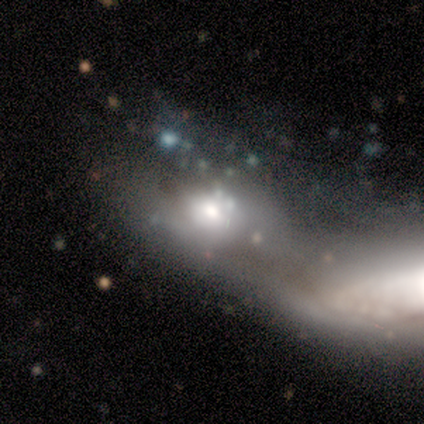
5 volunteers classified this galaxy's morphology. Overall: featured or disk (60%; smooth 40%). Edge-on disk: no (100%). Bar: weak (67%; no 33%). Spiral arms: no (100%). Bulge size: moderate (67%; small 33%). Merging: none (40%, tied with merger).